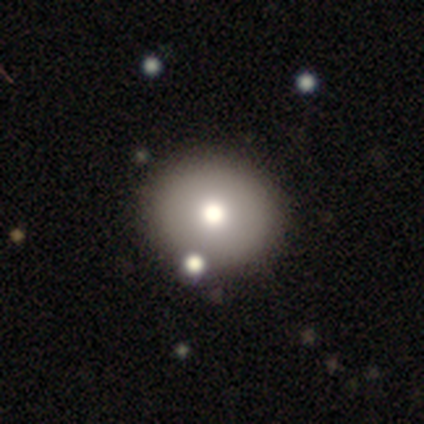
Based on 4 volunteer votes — Smooth or featured: smooth — 100%
How rounded: round — 75% (in between — 25%)
Merging: none — 50% (major disturbance — 25%)